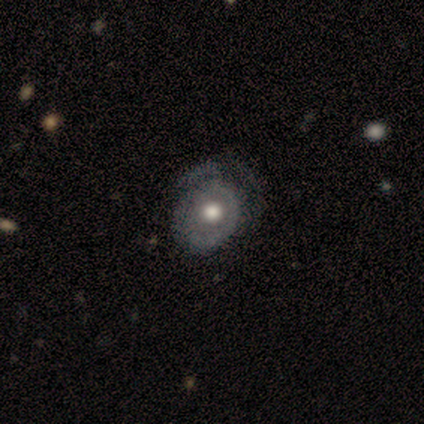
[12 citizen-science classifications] smooth_or_featured: featured or disk (p=0.75) [alt: star or artifact p=0.17]
disk_edge_on: no (p=1.00)
bar: no (p=0.89) [alt: weak p=0.11]
has_spiral_arms: no (p=0.78) [alt: yes p=0.22]
bulge_size: moderate (p=0.67) [alt: large p=0.22]
merging: none (p=0.40) [alt: minor disturbance p=0.30]